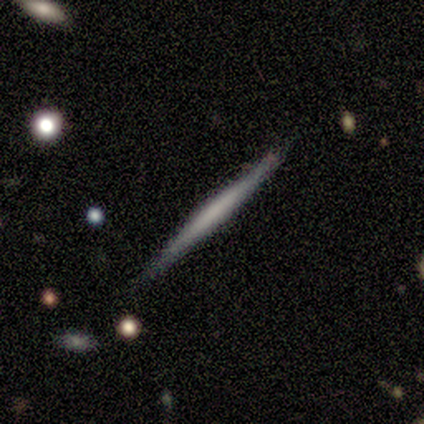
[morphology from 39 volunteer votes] Q: Smooth or featured?
A: featured or disk (56%); runner-up: smooth (41%)
Q: Edge-on disk?
A: yes (95%); runner-up: no (5%)
Q: Edge-on bulge?
A: none (52%); runner-up: rounded (38%)
Q: Merging?
A: none (87%); runner-up: minor disturbance (11%)